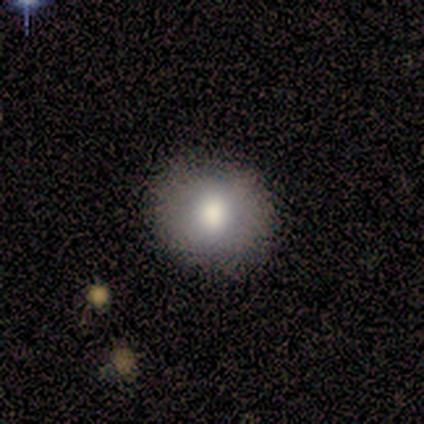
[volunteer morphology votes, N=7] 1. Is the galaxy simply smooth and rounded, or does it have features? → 71% smooth, 29% featured or disk, 0% star or artifact.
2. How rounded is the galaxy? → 80% round, 20% in between, 0% cigar-shaped.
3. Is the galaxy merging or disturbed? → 71% none, 14% minor disturbance, 14% major disturbance, 0% merger.